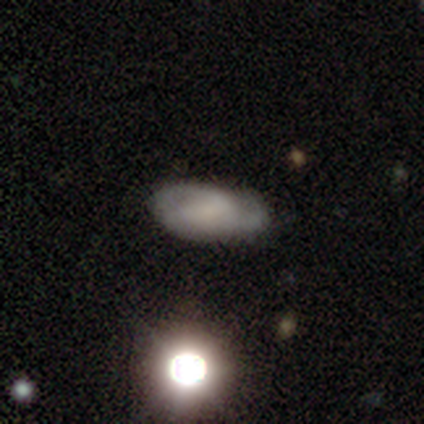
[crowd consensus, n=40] A featured or disk galaxy (52%) with no bar (56%), 2 (60%) medium (40%) spiral arms (83%) and no central bulge (72%). Merging: none (81%).